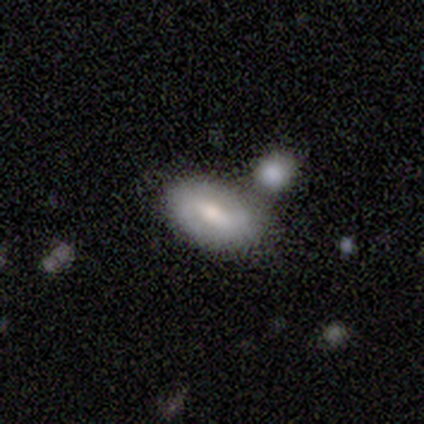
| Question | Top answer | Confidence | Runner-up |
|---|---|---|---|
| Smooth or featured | featured or disk | 60% | smooth (40%) |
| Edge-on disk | no | 100% | — |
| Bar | weak | 67% | strong (33%) |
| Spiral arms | yes | 67% | no (33%) |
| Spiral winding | tight | 50% | tied: medium (50%) |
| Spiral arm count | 2 | 100% | — |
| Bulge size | moderate | 67% | none (33%) |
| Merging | none | 40% | tied: merger (40%) |